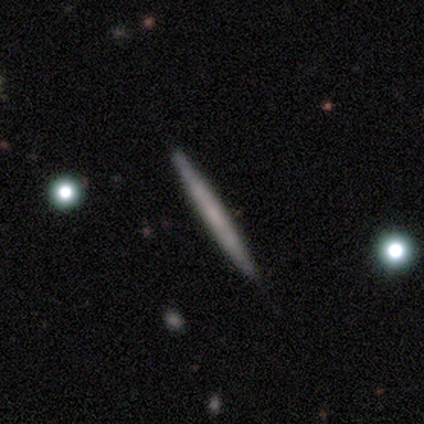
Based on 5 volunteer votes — Smooth or featured?
  - featured or disk: 60% *
  - smooth: 40%
  - star or artifact: 0%
Edge-on disk?
  - yes: 100% *
  - no: 0%
Edge-on bulge?
  - none: 67% *
  - boxy: 33%
  - rounded: 0%
Merging?
  - none: 100% *
  - minor disturbance: 0%
  - major disturbance: 0%
  - merger: 0%